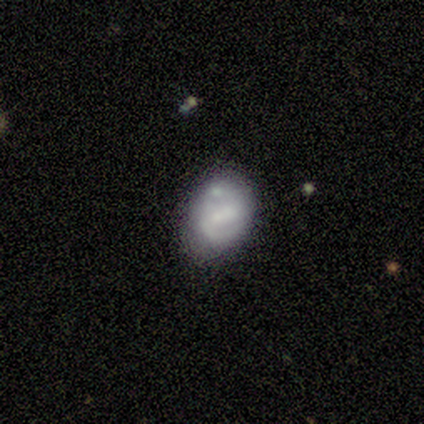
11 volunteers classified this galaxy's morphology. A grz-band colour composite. It shows a featured or disk galaxy (55%) with a strong bar (50%), 2 (60%) tight (80%) spiral arms (83%) and a large central bulge (33%, tied with none). Merging: minor disturbance (50%).